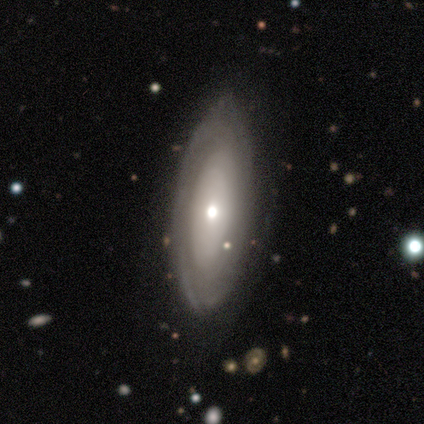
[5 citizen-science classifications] Smooth or featured? featured or disk (60%)
Edge-on disk? no (100%)
Bar? no (100%)
Spiral arms? no (67%)
Bulge size? moderate (67%)
Merging? none (80%)